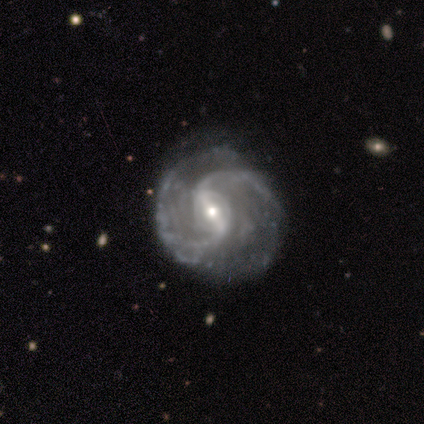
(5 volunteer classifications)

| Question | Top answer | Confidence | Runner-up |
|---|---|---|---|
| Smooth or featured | featured or disk | 100% | — |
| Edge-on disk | no | 100% | — |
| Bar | strong | 40% | tied: weak (40%) |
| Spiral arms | yes | 100% | — |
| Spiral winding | medium | 80% | tight (20%) |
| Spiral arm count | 2 | 100% | — |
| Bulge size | small | 80% | moderate (20%) |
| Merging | none | 80% | minor disturbance (20%) |